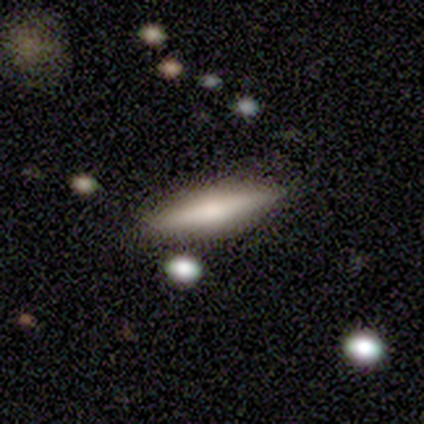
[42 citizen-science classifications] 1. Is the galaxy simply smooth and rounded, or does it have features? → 62% smooth, 36% featured or disk, 2% star or artifact.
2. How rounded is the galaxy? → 77% cigar-shaped, 23% in between, 0% round.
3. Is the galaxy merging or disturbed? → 80% none, 15% minor disturbance, 5% merger, 0% major disturbance.